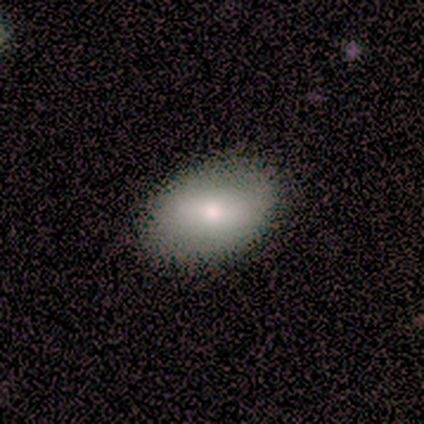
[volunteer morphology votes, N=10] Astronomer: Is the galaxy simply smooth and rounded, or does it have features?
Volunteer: smooth — 80%.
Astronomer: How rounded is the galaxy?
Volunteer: in between — 100%.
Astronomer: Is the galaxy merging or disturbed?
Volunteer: none — 80%.